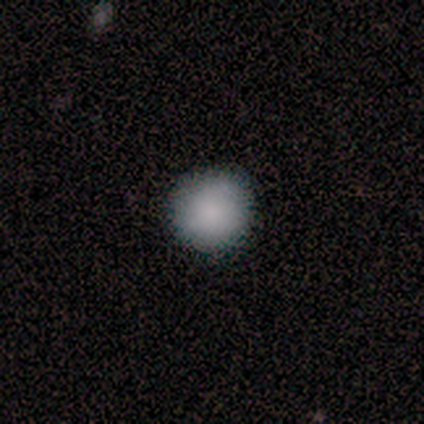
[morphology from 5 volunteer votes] Smooth or featured?
  - smooth: 100% *
  - featured or disk: 0%
  - star or artifact: 0%
How rounded?
  - round: 100% *
  - in between: 0%
  - cigar-shaped: 0%
Merging?
  - none: 60% *
  - minor disturbance: 40%
  - major disturbance: 0%
  - merger: 0%